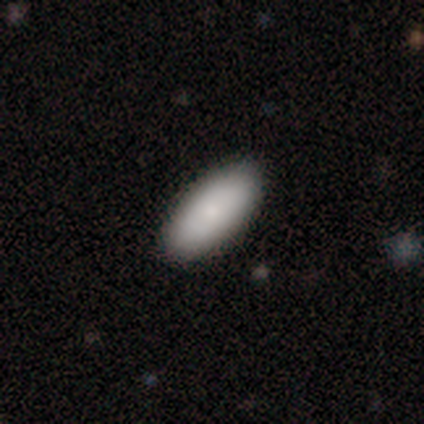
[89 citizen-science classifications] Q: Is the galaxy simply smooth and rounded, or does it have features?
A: smooth — 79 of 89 (89%).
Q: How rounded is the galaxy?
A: in between — 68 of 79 (86%).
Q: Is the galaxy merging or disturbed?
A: none — 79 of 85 (93%).